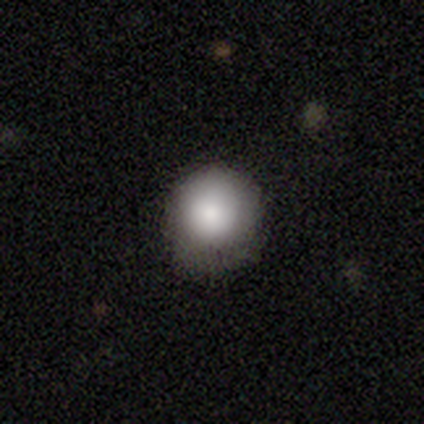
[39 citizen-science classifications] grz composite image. It shows a smooth galaxy with no disk features (85%) that is round (91%). Merging: none (69%).